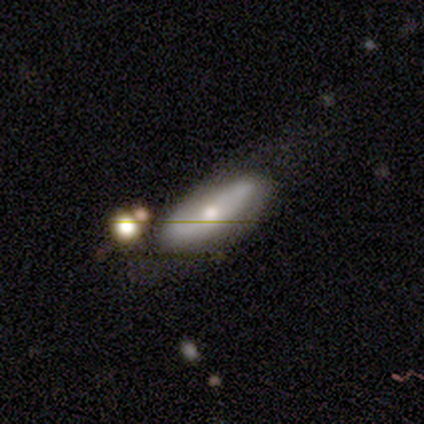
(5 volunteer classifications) This is clearly a smooth galaxy (80%). How rounded: likely in between (75%). Merging: marginally none (40%, tied with major disturbance).